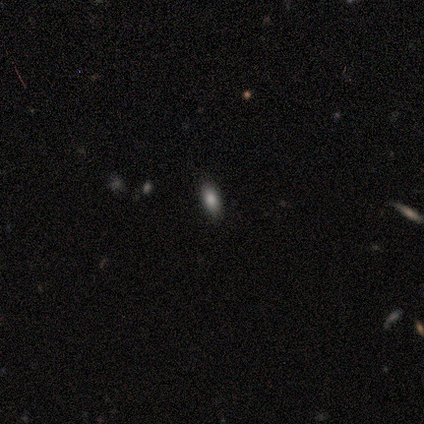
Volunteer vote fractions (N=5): A smooth galaxy with no disk features (100%) that is in between round and cigar-shaped (100%).

Vote fractions:
- Smooth or featured? smooth: 100% / featured or disk: 0% / star or artifact: 0%
- How rounded? in between: 100% / round: 0% / cigar-shaped: 0%
- Merging? none: 100% / minor disturbance: 0% / major disturbance: 0% / merger: 0%